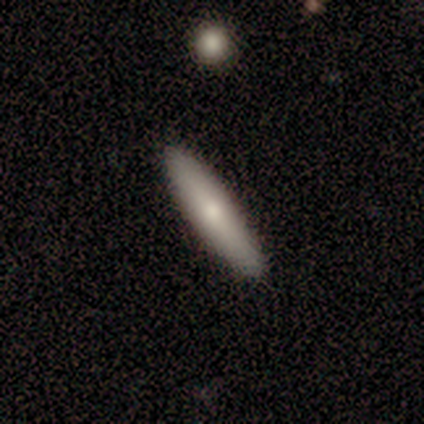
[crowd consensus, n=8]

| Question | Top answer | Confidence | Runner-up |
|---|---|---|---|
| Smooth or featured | smooth | 62% | featured or disk (38%) |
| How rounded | cigar-shaped | 60% | in between (40%) |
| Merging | none | 62% | minor disturbance (25%) |